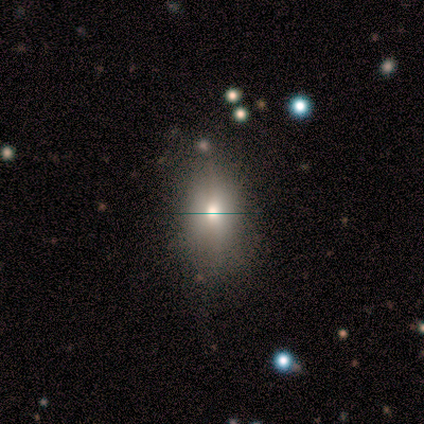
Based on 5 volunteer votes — smooth 80%, featured or disk 20%, star or artifact 0%. Down the decision tree: how rounded — in between (100%); merging — none (100%).